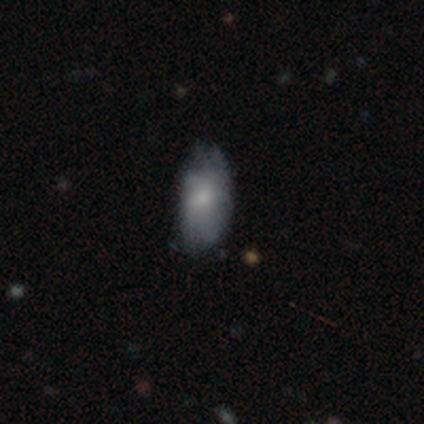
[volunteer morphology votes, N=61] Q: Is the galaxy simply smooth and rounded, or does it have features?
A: smooth — 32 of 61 (52%).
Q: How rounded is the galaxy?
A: in between — 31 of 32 (97%).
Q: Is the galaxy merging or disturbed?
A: none — 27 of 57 (47%).